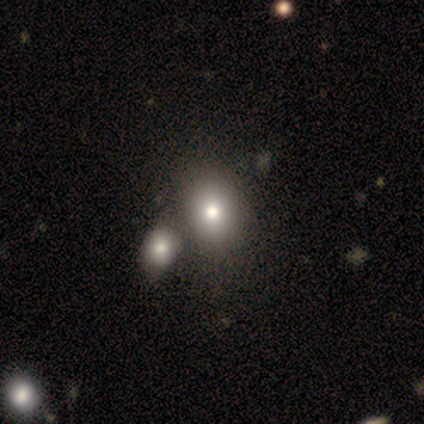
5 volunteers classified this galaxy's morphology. A smooth galaxy with no disk features (80%) that is in between round and cigar-shaped (100%).

Vote fractions:
- Smooth or featured? smooth: 80% / star or artifact: 20% / featured or disk: 0%
- How rounded? in between: 100% / round: 0% / cigar-shaped: 0%
- Merging? none: 75% / minor disturbance: 25% / major disturbance: 0% / merger: 0%